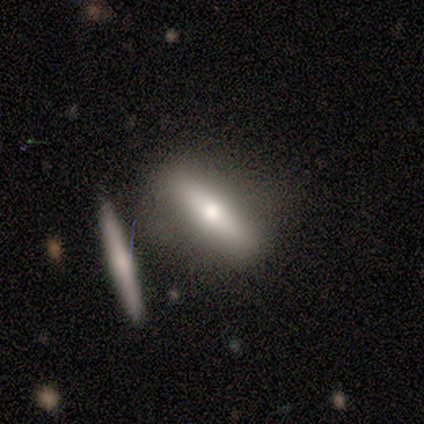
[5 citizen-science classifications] Smooth or featured? smooth (40%, tied with featured or disk)
How rounded? in between (50%, tied with cigar-shaped)
Merging? none (100%)